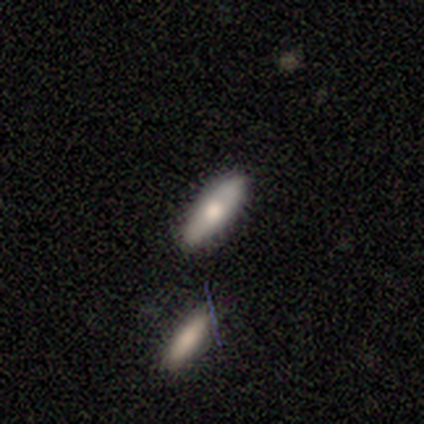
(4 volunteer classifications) Smooth or featured? smooth (50%)
How rounded? in between (50%, tied with cigar-shaped)
Merging? none (100%)